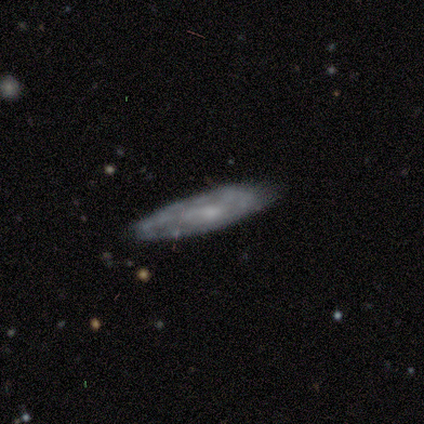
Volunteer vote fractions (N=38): Smooth or featured: featured or disk — 63% (smooth — 32%)
Edge-on disk: no — 67% (yes — 33%)
Bar: no — 69% (weak — 25%)
Spiral arms: no — 69% (yes — 31%)
Bulge size: small — 69% (moderate — 12%)
Merging: none — 67% (minor disturbance — 17%)